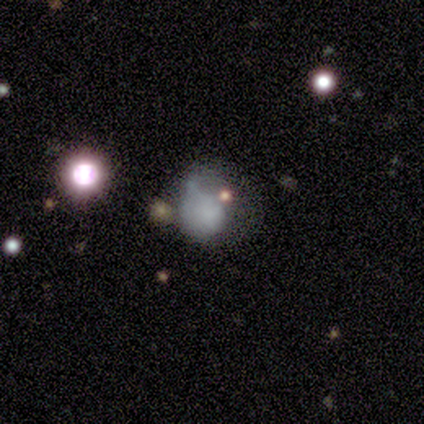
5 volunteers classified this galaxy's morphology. This is likely a smooth galaxy (60%). How rounded: likely in between (67%). Merging: likely minor disturbance (60%).